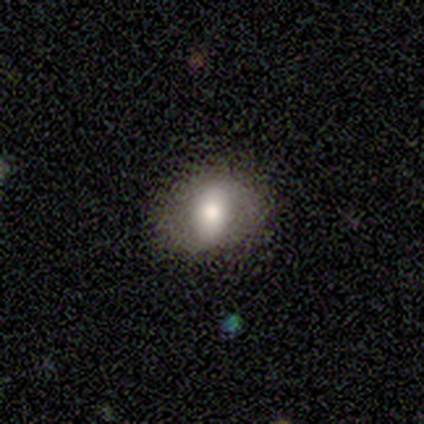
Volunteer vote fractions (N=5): Smooth or featured: smooth — 60% (featured or disk — 20%)
How rounded: in between — 100%
Merging: none — 75% (minor disturbance — 25%)